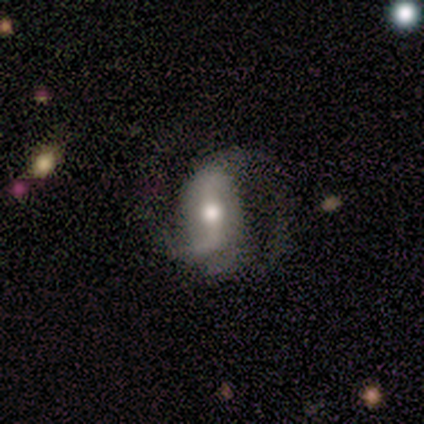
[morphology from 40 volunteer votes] This is clearly a featured or disk galaxy (85%). It is clearly not viewed edge-on (97%). Bar: marginally weak (39%). Spiral arm pattern: clearly yes (97%). Spiral arm count: likely 2 (72%). Spiral winding: likely loose (78%). Central bulge: likely moderate (70%). Merging: marginally none (39%).